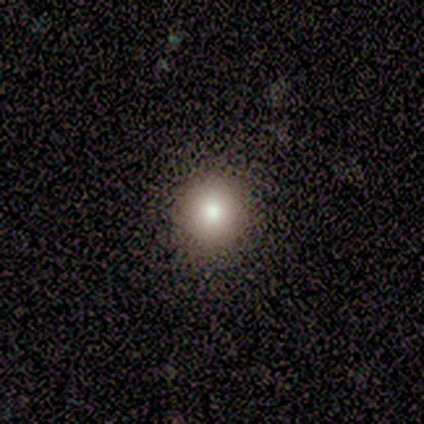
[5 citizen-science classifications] Volunteers were most divided on "how rounded": round: 80%, in between: 20%, cigar-shaped: 0%. More confident: smooth or featured — smooth (100%); merging — none (80%).